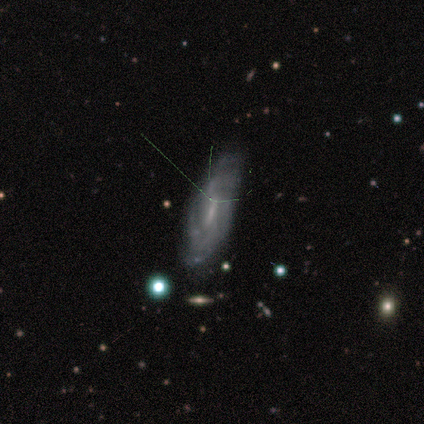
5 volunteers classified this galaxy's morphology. Smooth or featured: featured or disk — 100%
Edge-on disk: no — 80% (yes — 20%)
Bar: weak — 50% (tied with no — 50%)
Spiral arms: yes — 100%
Spiral winding: loose — 50% (tight — 25%)
Spiral arm count: can't tell — 50% (2 — 25%)
Bulge size: small — 100%
Merging: minor disturbance — 60% (none — 40%)